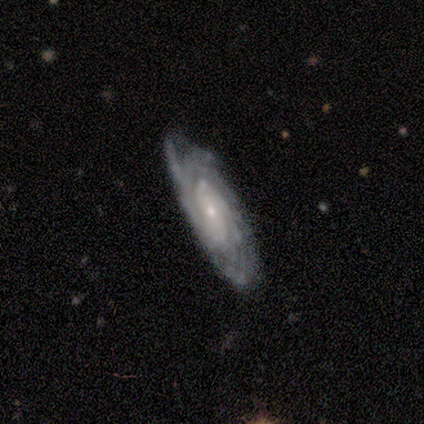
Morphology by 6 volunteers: A featured or disk galaxy (83%) with no bar (80%), tight (100%) spiral arms (80%) and a small central bulge (80%). Merging: none (80%).